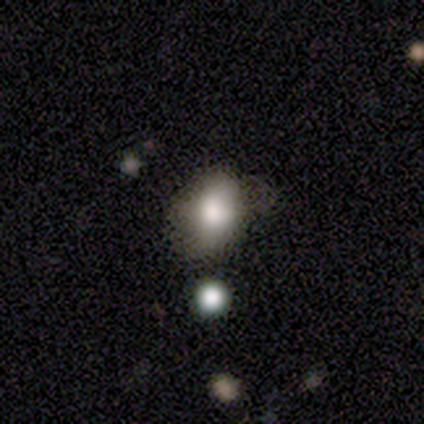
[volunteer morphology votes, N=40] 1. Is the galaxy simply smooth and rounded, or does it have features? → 80% smooth, 12% featured or disk, 8% star or artifact.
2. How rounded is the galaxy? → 69% in between, 31% round, 0% cigar-shaped.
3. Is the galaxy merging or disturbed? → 59% none, 30% minor disturbance, 8% major disturbance, 3% merger.